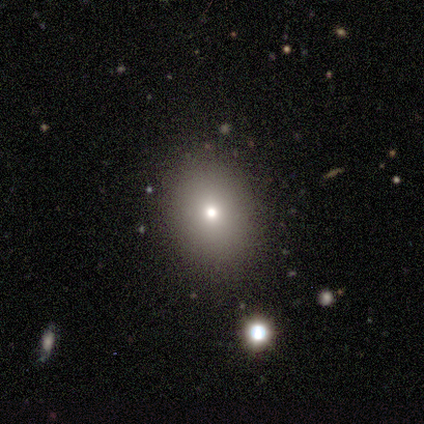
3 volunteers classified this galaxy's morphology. This appears to be a featured or disk galaxy (67%) with a weak bar (50%, tied with no), no spiral arms (100%) and a moderate central bulge (50%, tied with small). Merging: none (100%).